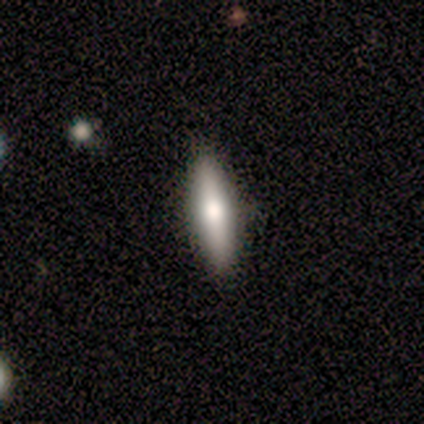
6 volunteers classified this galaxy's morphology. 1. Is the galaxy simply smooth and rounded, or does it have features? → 67% smooth, 33% featured or disk, 0% star or artifact.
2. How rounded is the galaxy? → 50% in between (tied), 50% cigar-shaped (tied), 0% round.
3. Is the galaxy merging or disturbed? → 100% none, 0% minor disturbance, 0% major disturbance, 0% merger.